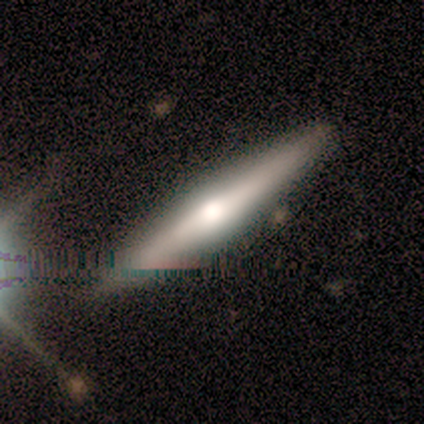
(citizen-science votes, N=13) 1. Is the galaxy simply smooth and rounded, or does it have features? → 54% smooth, 38% featured or disk, 8% star or artifact.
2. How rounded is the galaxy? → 86% cigar-shaped, 14% in between, 0% round.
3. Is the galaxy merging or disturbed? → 92% none, 8% minor disturbance, 0% major disturbance, 0% merger.